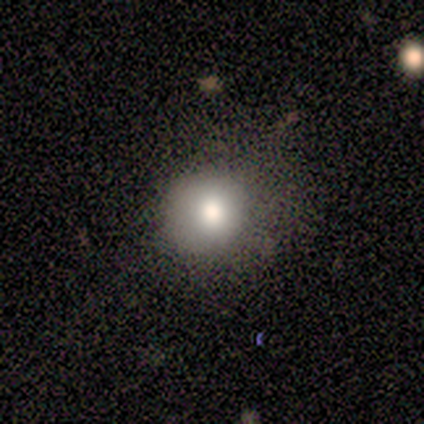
Smooth or featured?
  - smooth: 88% *
  - star or artifact: 12%
  - featured or disk: 0%
How rounded?
  - round: 100% *
  - in between: 0%
  - cigar-shaped: 0%
Merging?
  - none: 57% *
  - minor disturbance: 29%
  - major disturbance: 14%
  - merger: 0%